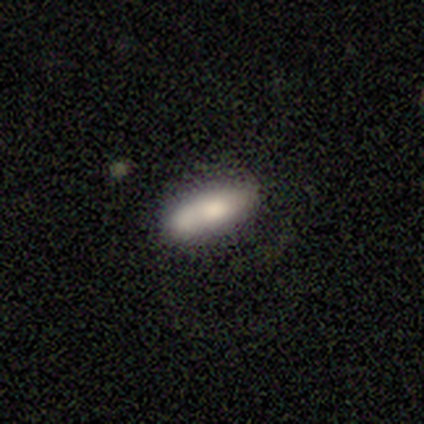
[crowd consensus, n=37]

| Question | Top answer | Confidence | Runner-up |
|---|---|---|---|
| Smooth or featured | smooth | 76% | featured or disk (22%) |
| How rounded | in between | 64% | cigar-shaped (36%) |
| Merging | none | 78% | minor disturbance (11%) |